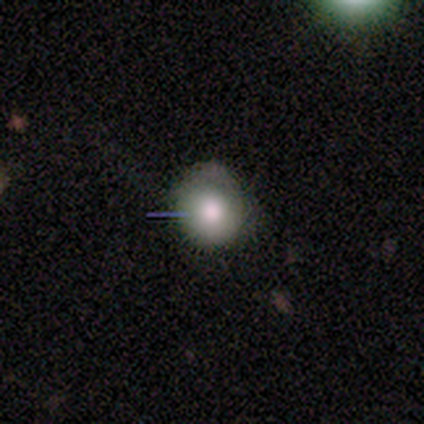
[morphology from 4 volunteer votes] Smooth or featured: smooth — 75% (star or artifact — 25%)
How rounded: round — 67% (in between — 33%)
Merging: none — 100%